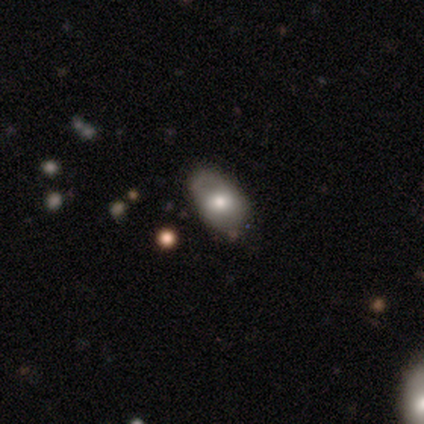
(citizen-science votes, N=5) Smooth or featured: smooth — 80% (star or artifact — 20%)
How rounded: in between — 75% (round — 25%)
Merging: none — 50% (tied with minor disturbance — 50%)